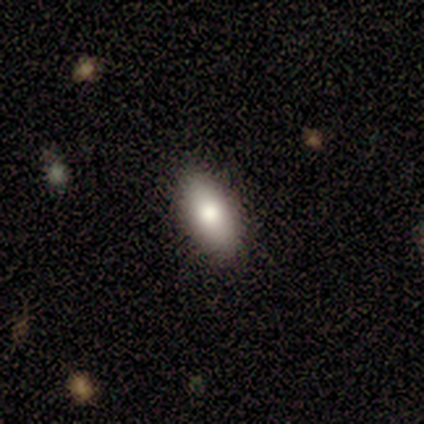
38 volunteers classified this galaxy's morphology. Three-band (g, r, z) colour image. It shows a smooth galaxy with no disk features (76%) that is in between round and cigar-shaped (90%). Merging: none (91%).